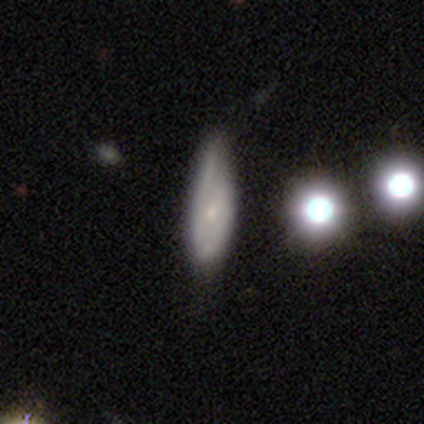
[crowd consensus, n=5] Q: Smooth or featured?
A: featured or disk (60%); runner-up: smooth (20%)
Q: Edge-on disk?
A: no (67%); runner-up: yes (33%)
Q: Bar?
A: no (100%)
Q: Spiral arms?
A: yes (100%)
Q: Spiral winding?
A: loose (100%)
Q: Spiral arm count?
A: 2 (50%); tied with: can't tell (50%)
Q: Bulge size?
A: small (100%)
Q: Merging?
A: minor disturbance (75%); runner-up: none (25%)